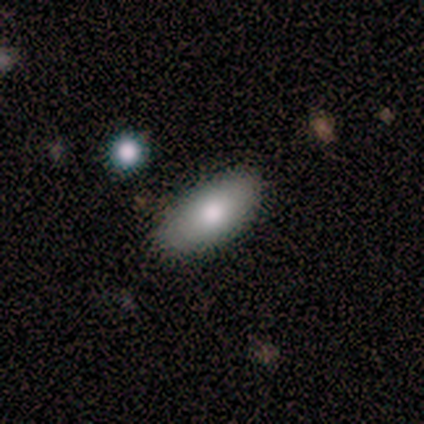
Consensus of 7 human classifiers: A smooth galaxy with no disk features (71%) that is in between round and cigar-shaped (100%).

Vote fractions:
- Smooth or featured? smooth: 71% / featured or disk: 14% / star or artifact: 14%
- How rounded? in between: 100% / round: 0% / cigar-shaped: 0%
- Merging? none: 67% / minor disturbance: 33% / major disturbance: 0% / merger: 0%